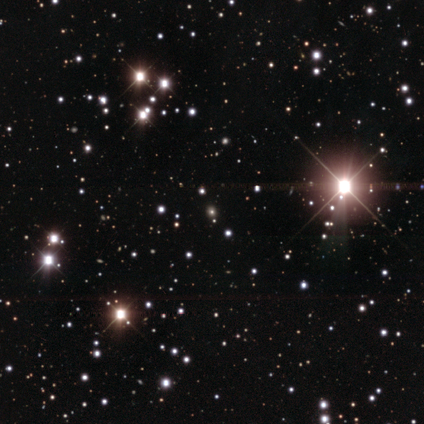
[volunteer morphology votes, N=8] smooth-or-featured: star or artifact: 75% | smooth: 25% | featured or disk: 0%